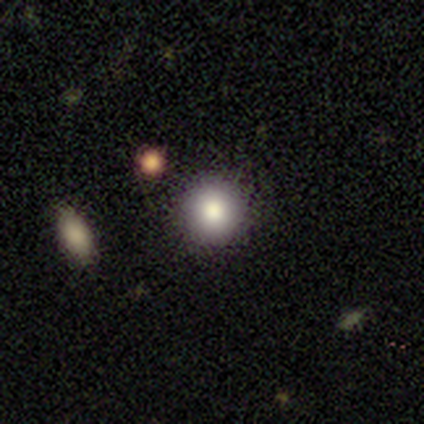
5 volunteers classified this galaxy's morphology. Smooth or featured? smooth (80%)
How rounded? round (75%)
Merging? none (100%)